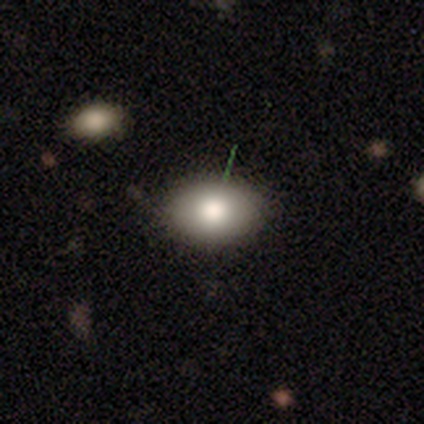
A smooth galaxy with no disk features (78%) that is in between round and cigar-shaped (79%).

Vote fractions:
- Smooth or featured? smooth: 78% / featured or disk: 16% / star or artifact: 5%
- How rounded? in between: 79% / round: 17% / cigar-shaped: 3%
- Merging? none: 89% / minor disturbance: 6% / major disturbance: 3% / merger: 3%